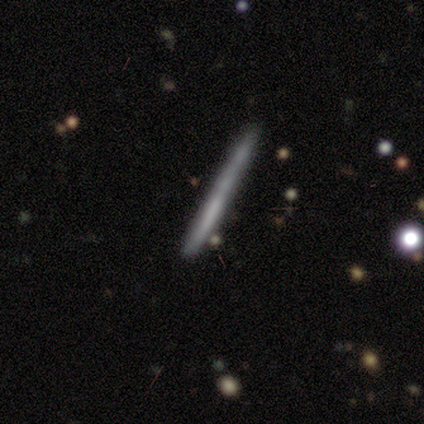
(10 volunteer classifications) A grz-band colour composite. It shows a smooth galaxy with no disk features (60%) that is cigar-shaped (100%). Merging: none (60%).